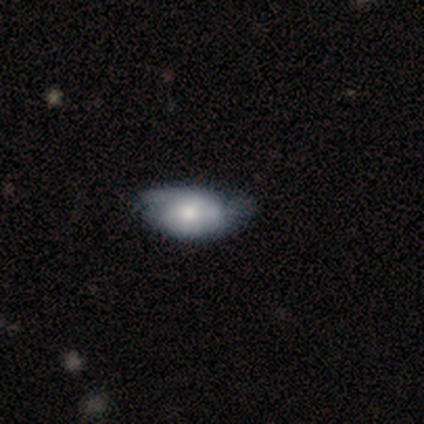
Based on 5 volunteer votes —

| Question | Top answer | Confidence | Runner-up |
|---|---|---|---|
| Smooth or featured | smooth | 100% | — |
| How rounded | in between | 100% | — |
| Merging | minor disturbance | 80% | none (20%) |